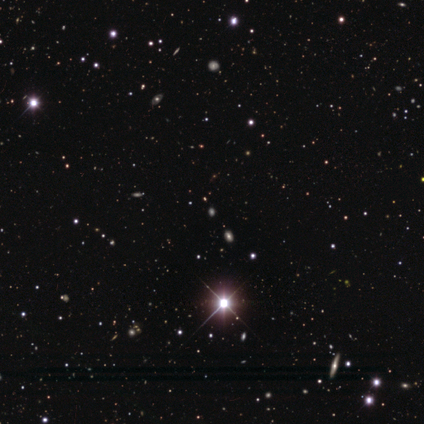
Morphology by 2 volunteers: smooth 100%, featured or disk 0%, star or artifact 0%. Down the decision tree: how rounded — in between (50%, tied with cigar-shaped); merging — none (50%, tied with minor disturbance).